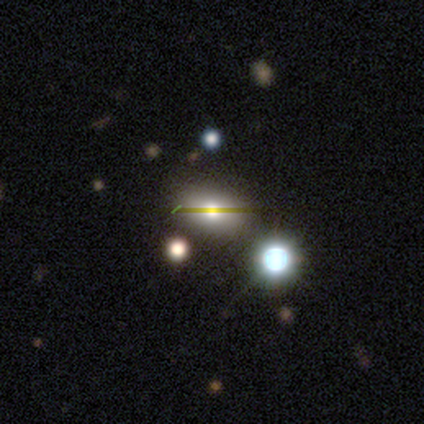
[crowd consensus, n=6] A smooth galaxy with no disk features (50%) that is round (67%).

Vote fractions:
- Smooth or featured? smooth: 50% / star or artifact: 33% / featured or disk: 17%
- How rounded? round: 67% / cigar-shaped: 33% / in between: 0%
- Merging? none: 100% / minor disturbance: 0% / major disturbance: 0% / merger: 0%